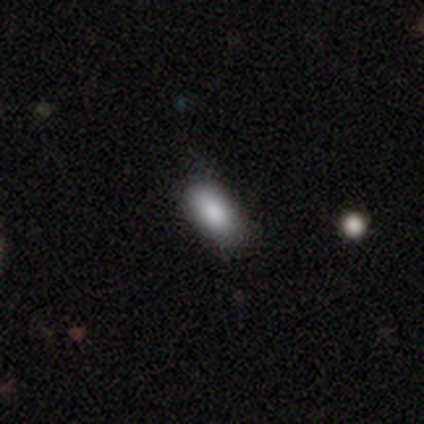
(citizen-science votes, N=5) Smooth or featured? smooth (80%)
How rounded? in between (100%)
Merging? none (80%)